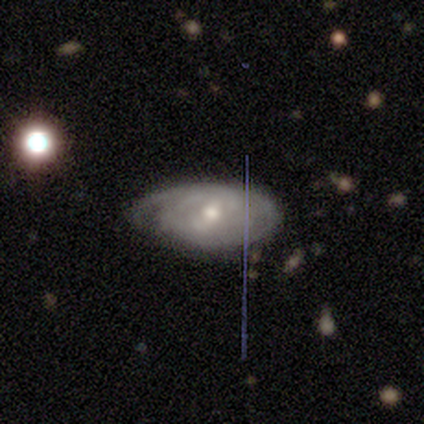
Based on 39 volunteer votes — smooth-or-featured: featured or disk: 79% | smooth: 15% | star or artifact: 5%
  disk-edge-on: no: 90% | yes: 10%
    bar: no: 46% | weak: 36% | strong: 18%
    has-spiral-arms: yes: 93% | no: 7%
      spiral-winding: tight: 88% | loose: 8% | medium: 4%
      spiral-arm-count: can't tell: 38% | 2: 27% | 4: 12% | 1: 8% | 3: 8% | more than 4: 8%
    bulge-size: moderate: 54% | small: 36% | none: 7% | large: 4% | dominant: 0%
  merging: none: 57% | minor disturbance: 38% | major disturbance: 5% | merger: 0%